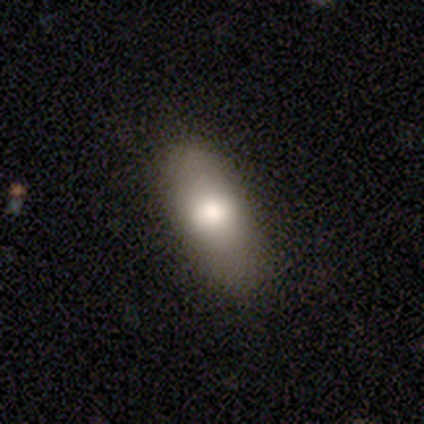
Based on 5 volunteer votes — A smooth galaxy with no disk features (80%) that is in between round and cigar-shaped (75%).

Vote fractions:
- Smooth or featured? smooth: 80% / featured or disk: 20% / star or artifact: 0%
- How rounded? in between: 75% / cigar-shaped: 25% / round: 0%
- Merging? none: 60% / minor disturbance: 40% / major disturbance: 0% / merger: 0%